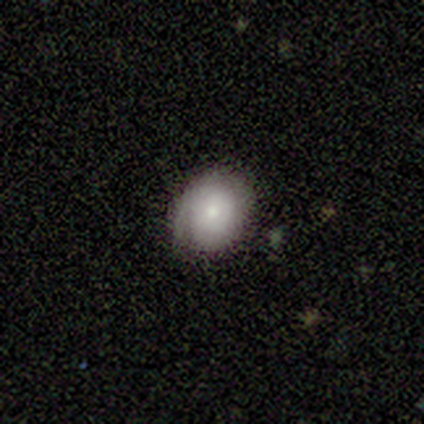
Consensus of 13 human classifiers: This is possibly a smooth galaxy (54%). How rounded: clearly round (86%). Merging: likely none (75%).